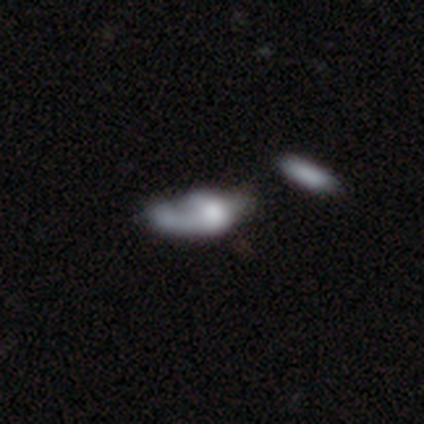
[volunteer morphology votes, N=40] Overall: featured or disk (50%; smooth 42%). Edge-on disk: no (100%). Bar: no (100%). Spiral arms: no (60%; yes 40%). Bulge size: large (30%; none 25%). Merging: major disturbance (38%; none 16%).